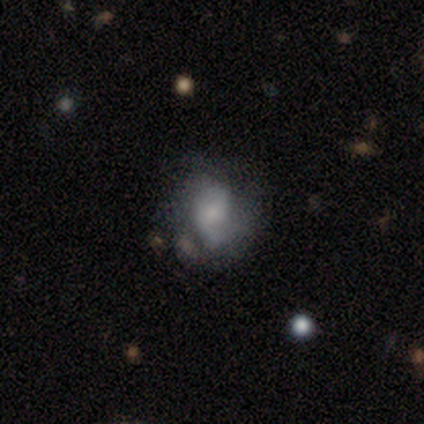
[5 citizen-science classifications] A featured or disk galaxy (80%) with a weak bar (50%, tied with no), 2 (50%, tied with can't tell) tight (50%, tied with medium) spiral arms (50%, tied with no) and a small central bulge (50%). Merging: none (40%, tied with major disturbance).